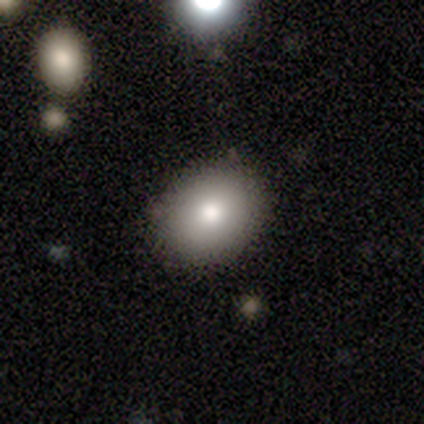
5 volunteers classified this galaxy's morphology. smooth-or-featured: smooth: 100% | featured or disk: 0% | star or artifact: 0%
  how-rounded: round: 80% | in between: 20% | cigar-shaped: 0%
  merging: none: 80% | minor disturbance: 20% | major disturbance: 0% | merger: 0%